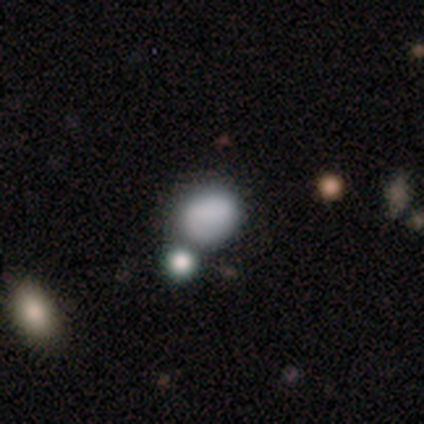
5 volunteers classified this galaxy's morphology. Q: Smooth or featured?
A: smooth (80%); runner-up: featured or disk (20%)
Q: How rounded?
A: round (50%); tied with: in between (50%)
Q: Merging?
A: none (60%); runner-up: minor disturbance (40%)